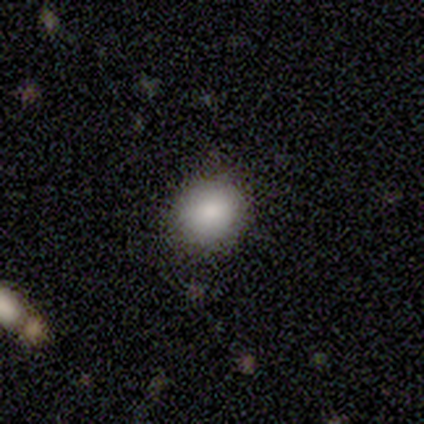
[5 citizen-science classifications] Smooth or featured?
  - smooth: 100% *
  - featured or disk: 0%
  - star or artifact: 0%
How rounded?
  - round: 100% *
  - in between: 0%
  - cigar-shaped: 0%
Merging?
  - none: 100% *
  - minor disturbance: 0%
  - major disturbance: 0%
  - merger: 0%